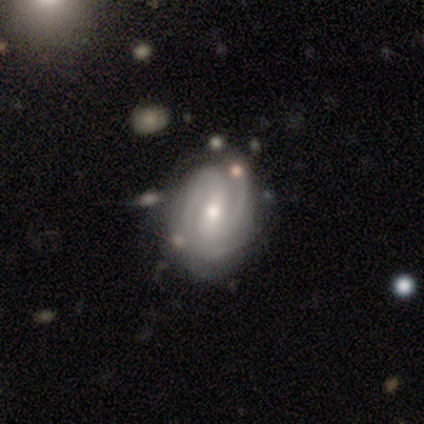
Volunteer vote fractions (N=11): A featured or disk galaxy (100%) with a strong bar (45%, tied with weak), 2 (55%) tight (82%) spiral arms (100%) and a moderate central bulge (55%).

Vote fractions:
- Smooth or featured? featured or disk: 100% / smooth: 0% / star or artifact: 0%
- Edge-on disk? no: 100% / yes: 0%
- Bar? strong: 45% (tied) / weak: 45% (tied) / no: 9%
- Spiral arms? yes: 100% / no: 0%
- Spiral winding? tight: 82% / medium: 18% / loose: 0%
- Spiral arm count? 2: 55% / 3: 18% / can't tell: 18% / 4: 9% / 1: 0% / more than 4: 0%
- Bulge size? moderate: 55% / small: 45% / dominant: 0% / large: 0% / none: 0%
- Merging? none: 73% / minor disturbance: 27% / major disturbance: 0% / merger: 0%